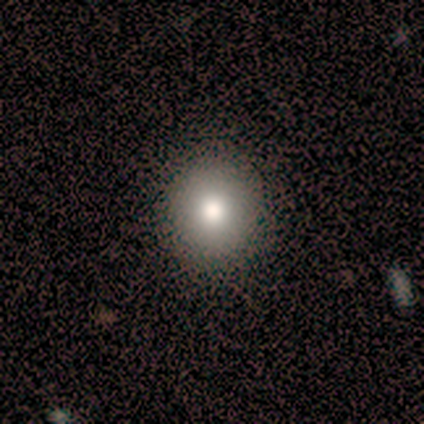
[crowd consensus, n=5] This is clearly a smooth galaxy (80%). How rounded: clearly round (100%). Merging: clearly none (100%).